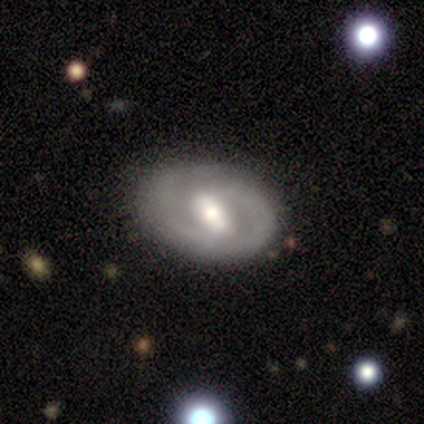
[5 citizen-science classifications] Smooth or featured?
  - smooth: 40% * (tied)
  - featured or disk: 40% * (tied)
  - star or artifact: 20%
How rounded?
  - in between: 100% *
  - round: 0%
  - cigar-shaped: 0%
Merging?
  - none: 75% *
  - minor disturbance: 25%
  - major disturbance: 0%
  - merger: 0%